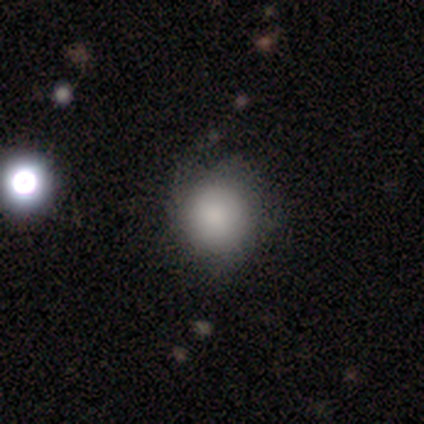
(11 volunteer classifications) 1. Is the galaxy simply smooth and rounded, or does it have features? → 100% smooth, 0% featured or disk, 0% star or artifact.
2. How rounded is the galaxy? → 91% round, 9% in between, 0% cigar-shaped.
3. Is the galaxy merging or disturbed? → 64% none, 27% minor disturbance, 9% major disturbance, 0% merger.